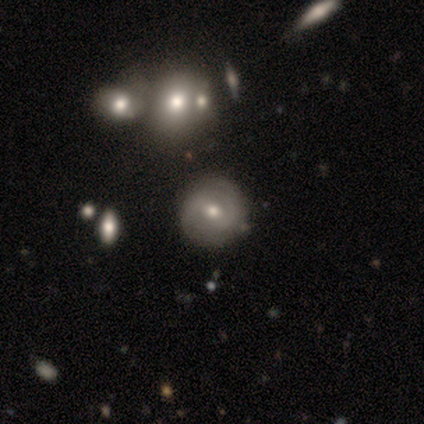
This is likely a featured or disk galaxy (62%). It is likely not viewed edge-on (78%). Bar: possibly no (50%). Spiral arm pattern: likely yes (67%). Spiral arm count: likely 2 (75%). Spiral winding: possibly tight (58%). Central bulge: likely moderate (72%). Merging: clearly none (83%).